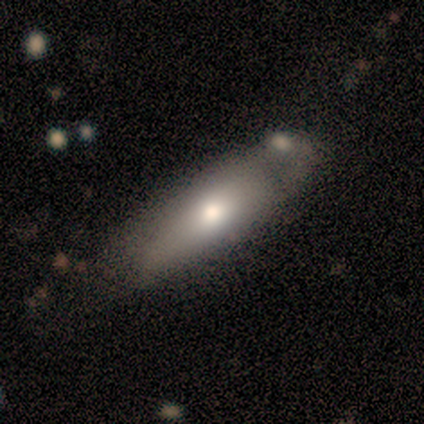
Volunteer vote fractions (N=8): Q: Smooth or featured?
A: smooth (50%); runner-up: featured or disk (38%)
Q: How rounded?
A: cigar-shaped (75%); runner-up: in between (25%)
Q: Merging?
A: minor disturbance (43%); runner-up: none (29%)